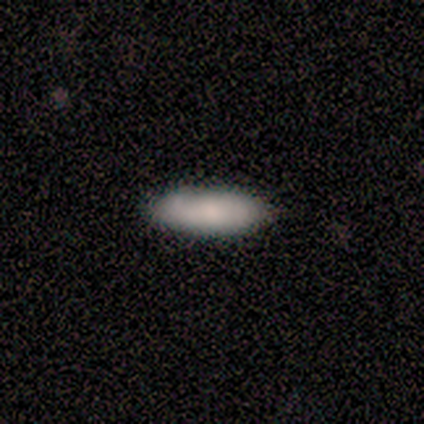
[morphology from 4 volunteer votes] This is likely a smooth galaxy (75%). How rounded: likely cigar-shaped (67%). Merging: clearly none (100%).